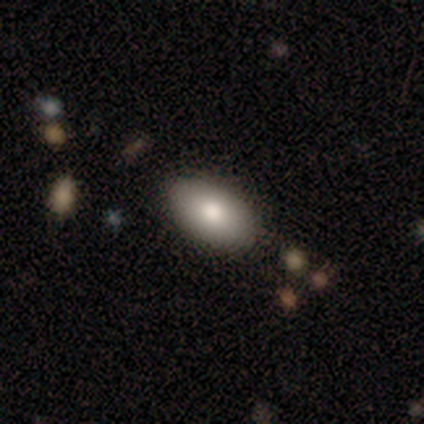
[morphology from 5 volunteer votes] Smooth or featured?
  - smooth: 40% * (tied)
  - featured or disk: 40% * (tied)
  - star or artifact: 20%
How rounded?
  - in between: 100% *
  - round: 0%
  - cigar-shaped: 0%
Merging?
  - none: 75% *
  - minor disturbance: 25%
  - major disturbance: 0%
  - merger: 0%